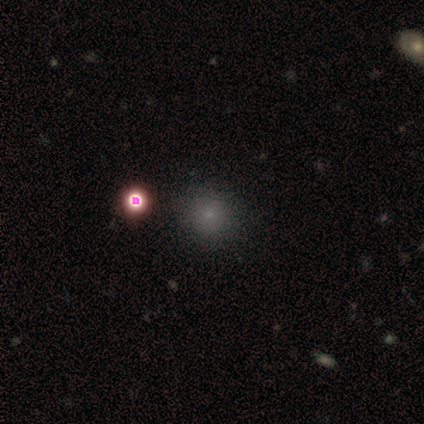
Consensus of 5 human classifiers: Smooth or featured: star or artifact — 60% (smooth — 20%)